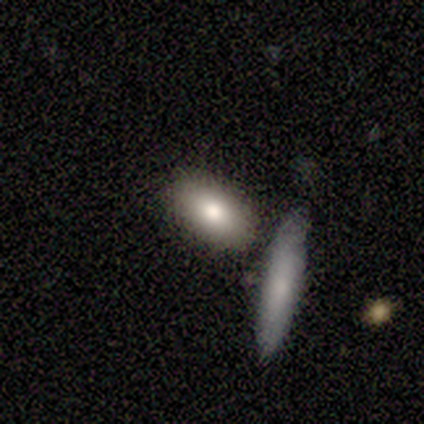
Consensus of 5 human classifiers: Smooth or featured: smooth — 100%
How rounded: in between — 80% (cigar-shaped — 20%)
Merging: none — 80% (merger — 20%)